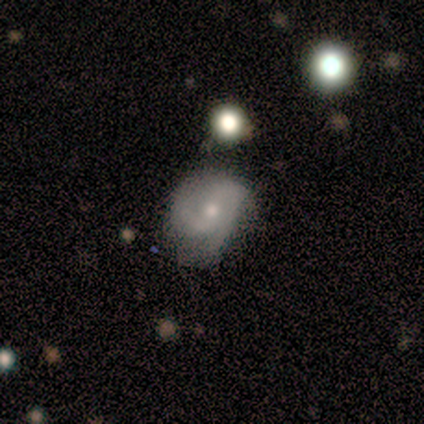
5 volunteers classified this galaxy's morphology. smooth-or-featured: featured or disk: 80% | star or artifact: 20% | smooth: 0%
  disk-edge-on: no: 100% | yes: 0%
    bar: weak: 50% (tied) | no: 50% (tied) | strong: 0%
    has-spiral-arms: yes: 100% | no: 0%
      spiral-winding: medium: 75% | tight: 25% | loose: 0%
      spiral-arm-count: 2: 50% | 3: 25% | can't tell: 25% | 1: 0% | 4: 0% | more than 4: 0%
    bulge-size: moderate: 75% | small: 25% | dominant: 0% | large: 0% | none: 0%
  merging: minor disturbance: 100% | none: 0% | major disturbance: 0% | merger: 0%